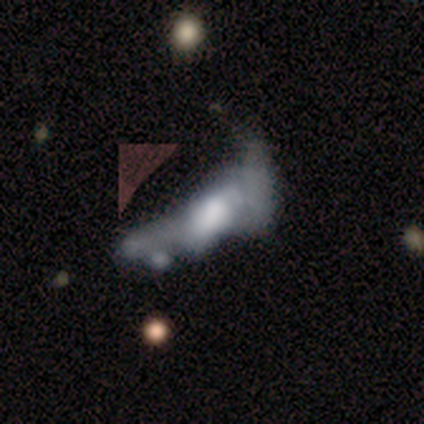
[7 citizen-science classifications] Smooth or featured? featured or disk (57%)
Edge-on disk? no (75%)
Bar? no (67%)
Spiral arms? no (100%)
Bulge size? moderate (100%)
Merging? major disturbance (71%)